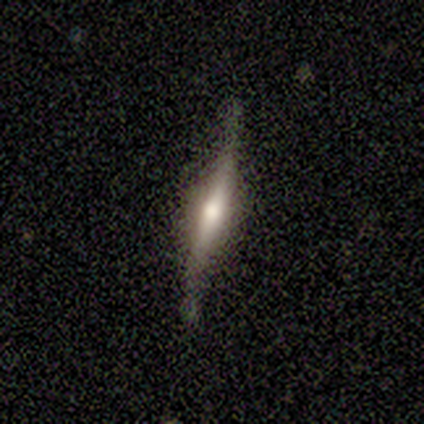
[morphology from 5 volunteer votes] A featured or disk galaxy (100%) viewed edge-on (80%) with a rounded central bulge (75%).

Vote fractions:
- Smooth or featured? featured or disk: 100% / smooth: 0% / star or artifact: 0%
- Edge-on disk? yes: 80% / no: 20%
- Edge-on bulge? rounded: 75% / boxy: 25% / none: 0%
- Merging? none: 80% / major disturbance: 20% / minor disturbance: 0% / merger: 0%